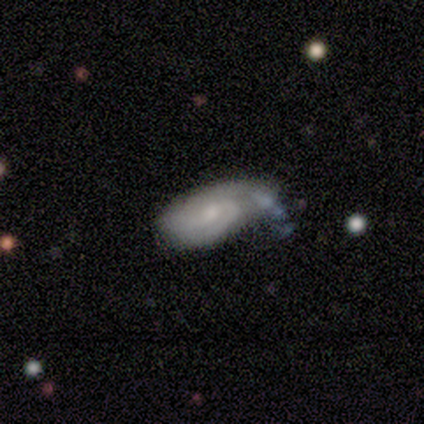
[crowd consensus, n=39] A featured or disk galaxy (87%) with no bar (58%), 2 (39%) tight (61%) spiral arms (85%) and a small central bulge (52%). Merging: minor disturbance (43%).